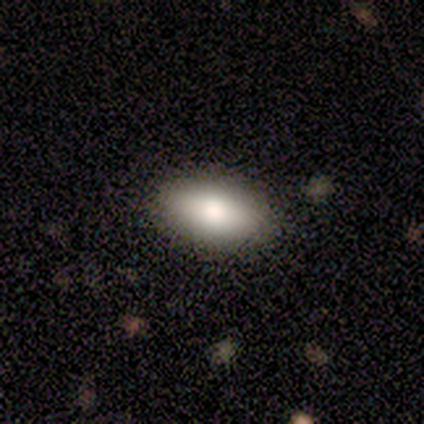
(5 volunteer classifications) smooth_or_featured: smooth (p=1.00)
how_rounded: in between (p=1.00)
merging: none (p=1.00)